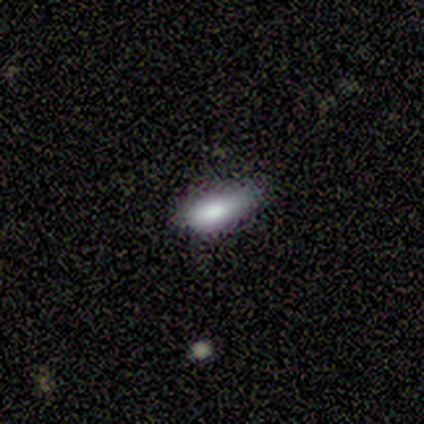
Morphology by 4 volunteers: A smooth galaxy with no disk features (50%, tied with star or artifact) that is in between round and cigar-shaped (100%). Merging: minor disturbance (100%).